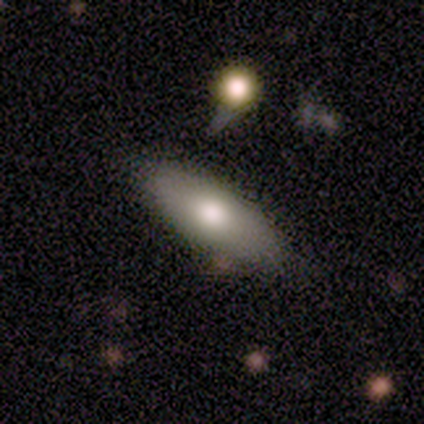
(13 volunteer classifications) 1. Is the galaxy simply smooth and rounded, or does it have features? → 85% smooth, 15% featured or disk, 0% star or artifact.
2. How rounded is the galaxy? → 91% in between, 9% cigar-shaped, 0% round.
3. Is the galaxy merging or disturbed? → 92% none, 8% minor disturbance, 0% major disturbance, 0% merger.